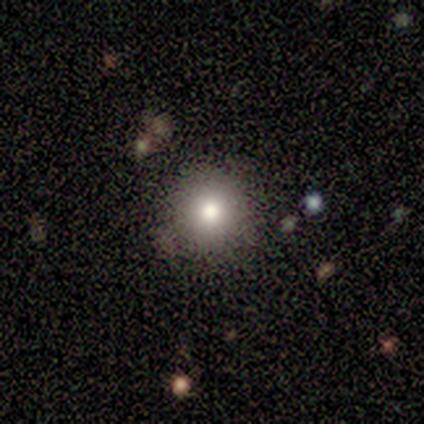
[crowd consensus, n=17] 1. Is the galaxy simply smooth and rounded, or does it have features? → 76% smooth, 24% featured or disk, 0% star or artifact.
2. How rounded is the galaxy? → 100% round, 0% in between, 0% cigar-shaped.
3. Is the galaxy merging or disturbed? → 100% none, 0% minor disturbance, 0% major disturbance, 0% merger.